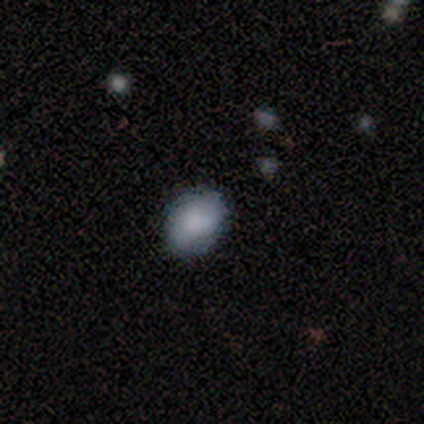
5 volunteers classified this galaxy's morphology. Smooth or featured: smooth — 80% (featured or disk — 20%)
How rounded: round — 50% (tied with in between — 50%)
Merging: none — 80% (minor disturbance — 20%)